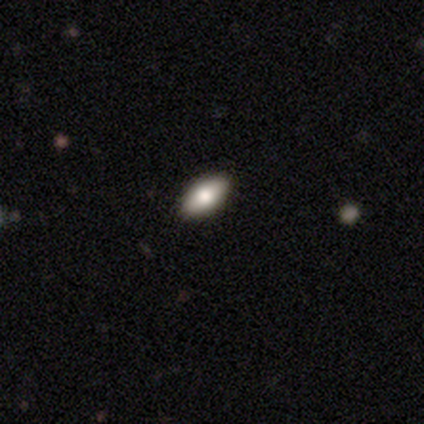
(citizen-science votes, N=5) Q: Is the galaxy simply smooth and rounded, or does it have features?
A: smooth — 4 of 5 (80%).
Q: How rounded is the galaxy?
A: in between — 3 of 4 (75%).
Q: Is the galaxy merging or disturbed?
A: none — 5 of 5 (100%).